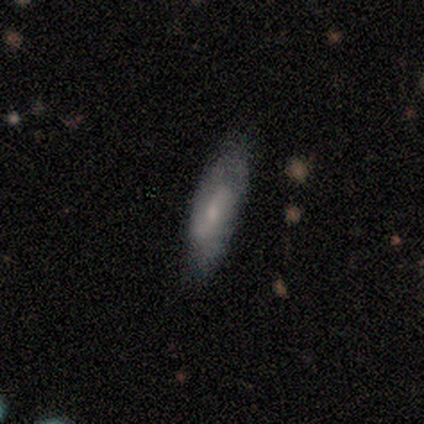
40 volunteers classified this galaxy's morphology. smooth_or_featured: smooth (p=0.50) [alt: featured or disk p=0.45]
how_rounded: in between (p=0.70) [alt: cigar-shaped p=0.30]
merging: none (p=0.50) [alt: minor disturbance p=0.13]